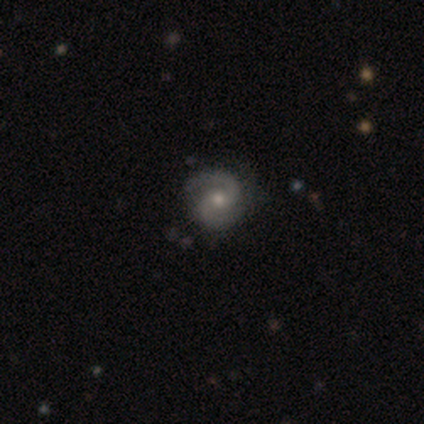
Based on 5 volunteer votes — This is clearly a featured or disk galaxy (100%). It is clearly not viewed edge-on (100%). Bar: clearly no (80%). Spiral arm pattern: clearly yes (100%). Spiral arm count: clearly 2 (80%). Spiral winding: likely medium (60%). Central bulge: clearly small (80%). Merging: clearly none (100%).